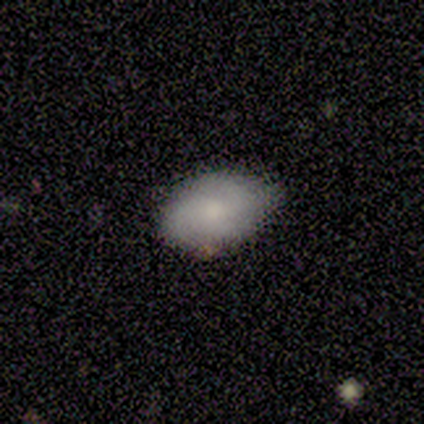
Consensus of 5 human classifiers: Smooth or featured? 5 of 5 (100%) said smooth. How rounded? 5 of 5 (100%) said in between. Merging? 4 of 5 (80%) said none.